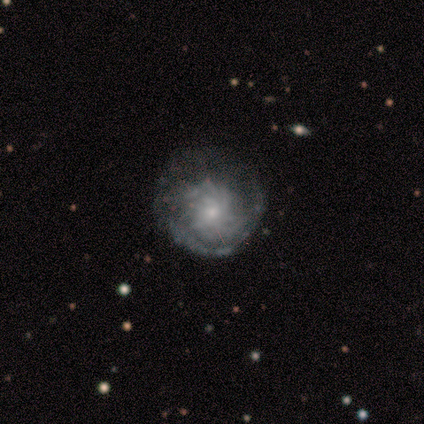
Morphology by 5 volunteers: A star or artifact, not a galaxy (60%).

Vote fractions:
- Smooth or featured? star or artifact: 60% / featured or disk: 40% / smooth: 0%